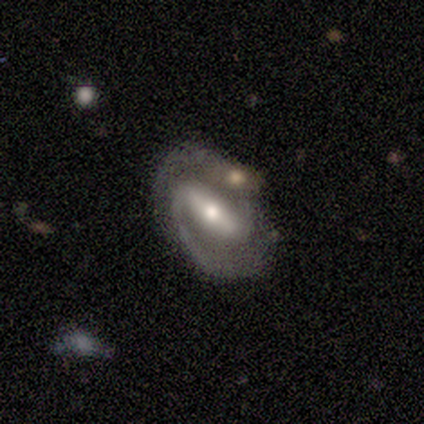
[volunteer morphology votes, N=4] Smooth or featured? 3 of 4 (75%) said featured or disk. Edge-on disk? 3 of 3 (100%) said no. Bar? 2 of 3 (67%) said strong. Spiral arms? 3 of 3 (100%) said yes. Spiral winding? 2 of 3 (67%) said medium. Spiral arm count? 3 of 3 (100%) said 2. Bulge size? 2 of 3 (67%) said moderate. Merging? 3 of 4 (75%) said none.